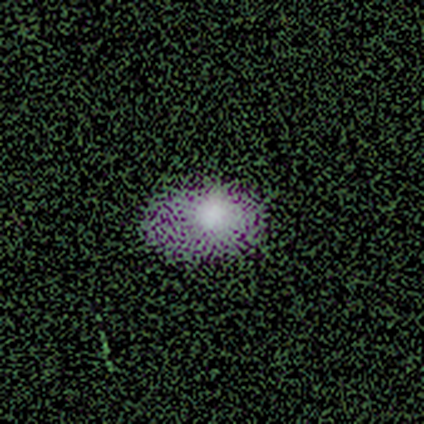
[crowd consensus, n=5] This appears to be a smooth galaxy with no disk features (80%) that is in between round and cigar-shaped (75%). Merging: none (75%).